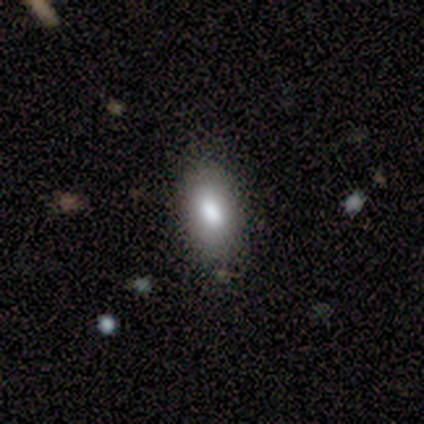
Smooth or featured: smooth — 80% (featured or disk — 20%)
How rounded: in between — 100%
Merging: none — 80% (minor disturbance — 20%)